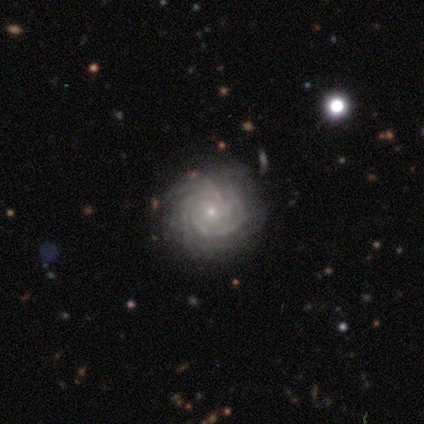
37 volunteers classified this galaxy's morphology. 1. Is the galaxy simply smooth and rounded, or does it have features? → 97% featured or disk, 3% star or artifact, 0% smooth.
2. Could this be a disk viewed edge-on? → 97% no, 3% yes.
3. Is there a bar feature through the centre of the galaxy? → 89% no, 9% weak, 3% strong.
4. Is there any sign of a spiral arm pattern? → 100% yes, 0% no.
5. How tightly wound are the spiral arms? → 83% tight, 14% medium, 3% loose.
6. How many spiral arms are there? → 26% 4 (tied), 26% more than 4 (tied), 26% can't tell (tied), 20% 3, 3% 2, 0% 1.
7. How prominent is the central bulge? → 86% small, 9% moderate, 3% dominant, 3% large, 0% none.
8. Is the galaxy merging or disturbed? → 78% none, 17% minor disturbance, 3% major disturbance, 3% merger.